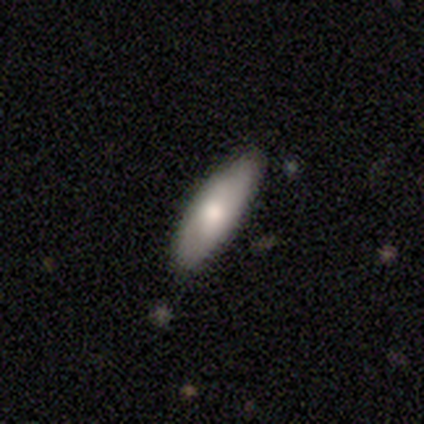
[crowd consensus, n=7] Morphology: type=featured or disk (57%); edge-on=yes (75%); edge-on bulge=rounded (100%); merging=none (100%).